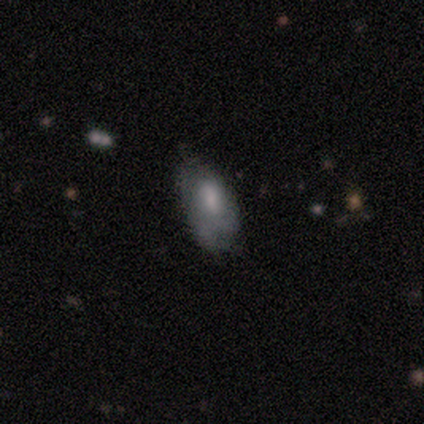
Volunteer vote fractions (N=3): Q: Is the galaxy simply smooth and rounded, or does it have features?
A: smooth — 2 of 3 (67%).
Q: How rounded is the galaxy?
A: in between — 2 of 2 (100%).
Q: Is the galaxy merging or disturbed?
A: none — 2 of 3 (67%).